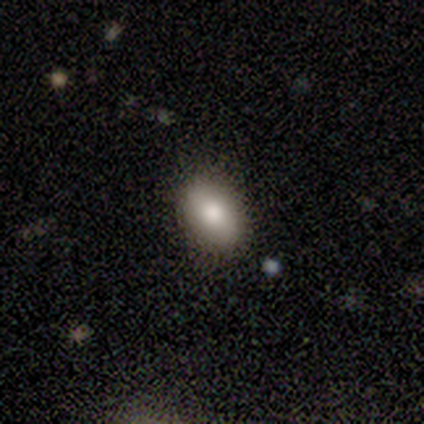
smooth-or-featured: smooth: 100% | featured or disk: 0% | star or artifact: 0%
  how-rounded: in between: 100% | round: 0% | cigar-shaped: 0%
  merging: none: 100% | minor disturbance: 0% | major disturbance: 0% | merger: 0%